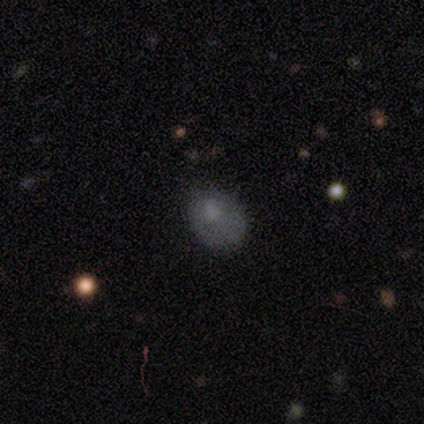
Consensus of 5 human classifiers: Smooth or featured: smooth — 60% (star or artifact — 40%)
How rounded: in between — 67% (round — 33%)
Merging: minor disturbance — 67% (major disturbance — 33%)